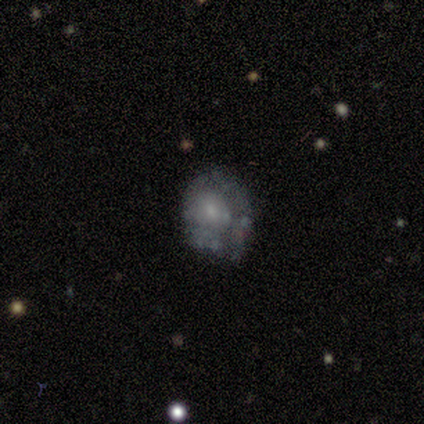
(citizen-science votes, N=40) This appears to be a featured or disk galaxy (70%) with no bar (85%), no spiral arms (73%) and a small central bulge (54%). Merging: none (59%).